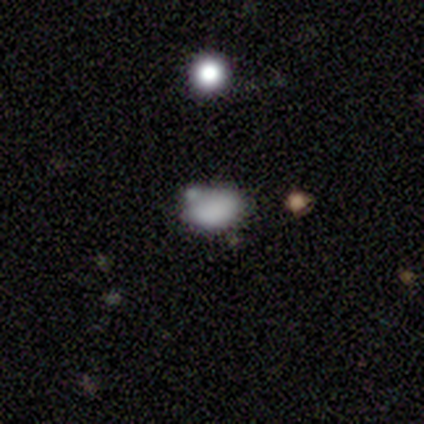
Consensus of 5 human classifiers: This appears to be a smooth galaxy with no disk features (100%) that is in between round and cigar-shaped (100%). Merging: none (40%, tied with minor disturbance).